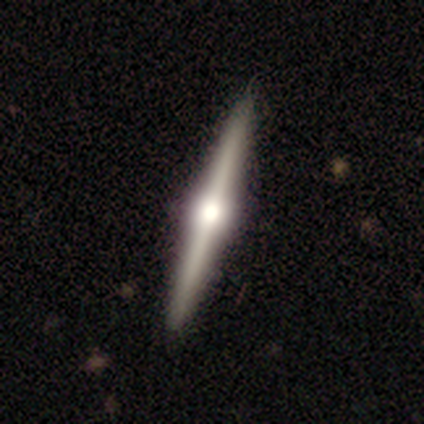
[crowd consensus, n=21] smooth-or-featured: featured or disk: 90% | smooth: 10% | star or artifact: 0%
  disk-edge-on: yes: 95% | no: 5%
    edge-on-bulge: rounded: 94% | boxy: 6% | none: 0%
  merging: none: 95% | minor disturbance: 5% | major disturbance: 0% | merger: 0%